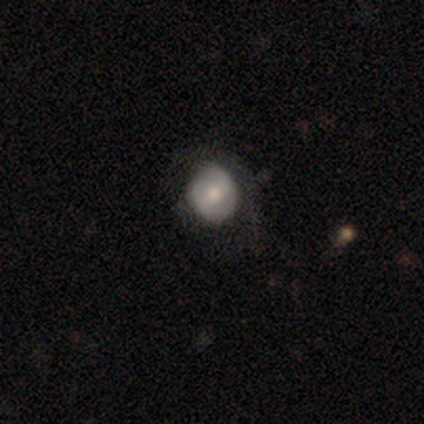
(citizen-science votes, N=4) Morphology: type=smooth (75%); roundness=round (67%); merging=none (50%).